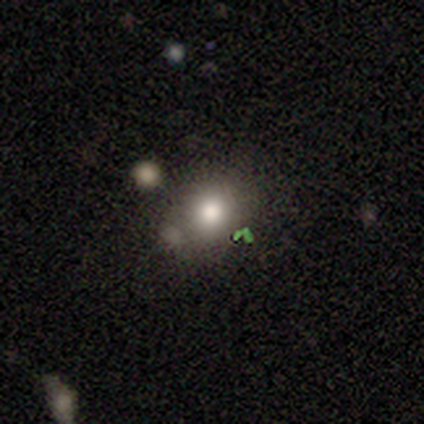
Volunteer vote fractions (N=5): A smooth galaxy with no disk features (80%) that is round (75%). Merging: none (75%).